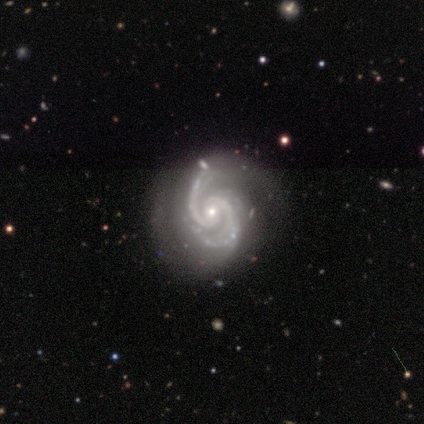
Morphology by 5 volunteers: This is clearly a featured or disk galaxy (80%). It is clearly not viewed edge-on (100%). Bar: possibly weak (50%). Spiral arm pattern: clearly yes (100%). Spiral arm count: clearly 2 (100%). Spiral winding: clearly medium (100%). Central bulge: clearly small (100%). Merging: possibly none (50%).